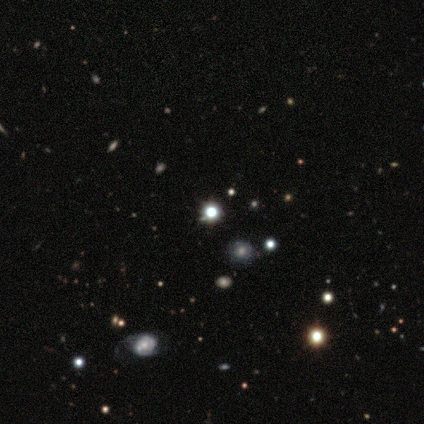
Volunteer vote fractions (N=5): This is likely a star or artifact rather than a galaxy (60%).